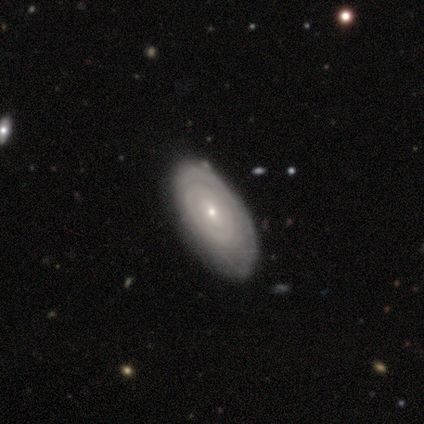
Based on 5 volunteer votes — featured or disk 100%, smooth 0%, star or artifact 0%. Down the decision tree: edge-on disk — no (80%); bar — no (50%); spiral arms — yes (100%); spiral arm count — 2 (50%); spiral winding — tight (75%); bulge size — small (75%); merging — none (80%).